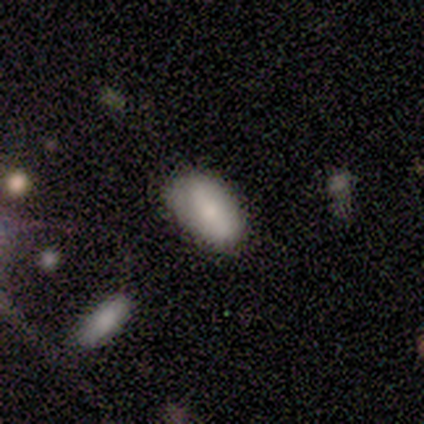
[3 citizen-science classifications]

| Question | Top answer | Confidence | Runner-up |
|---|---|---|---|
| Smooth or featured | smooth | 67% | star or artifact (33%) |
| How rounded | in between | 100% | — |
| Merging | none | 100% | — |